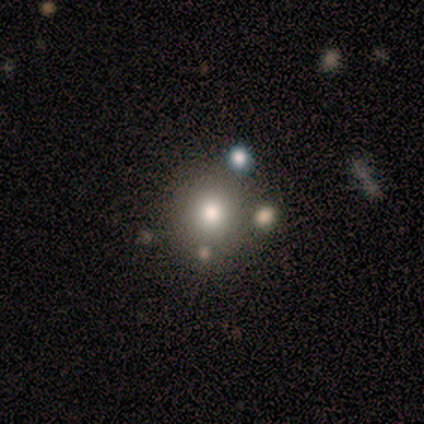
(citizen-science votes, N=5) Morphology: type=smooth (100%); roundness=round (100%); merging=none (60%).